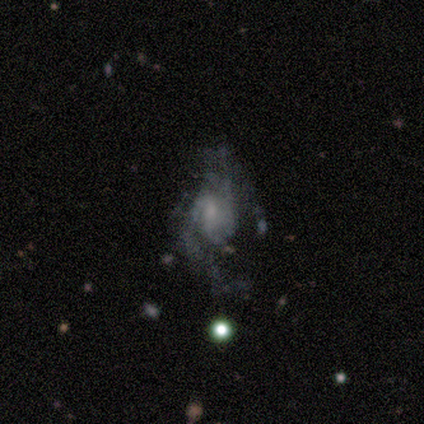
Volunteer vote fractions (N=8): Volunteers were most divided on "bulge size" (2-way tie): moderate: 40%, none: 40%, small: 20%, dominant: 0%, large: 0%; "merging" (2-way tie): minor disturbance: 40%, major disturbance: 40%, none: 20%, merger: 0%. More confident: edge-on disk — no (100%); spiral arm count — can't tell (100%); bar — no (80%); spiral arms — yes (80%); smooth or featured — featured or disk (62%); spiral winding — loose (50%).